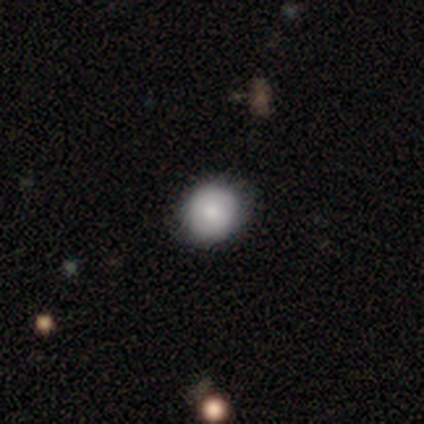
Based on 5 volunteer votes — Volunteers were most divided on "merging": minor disturbance: 60%, none: 40%, major disturbance: 0%, merger: 0%. More confident: smooth or featured — smooth (80%); how rounded — round (75%).